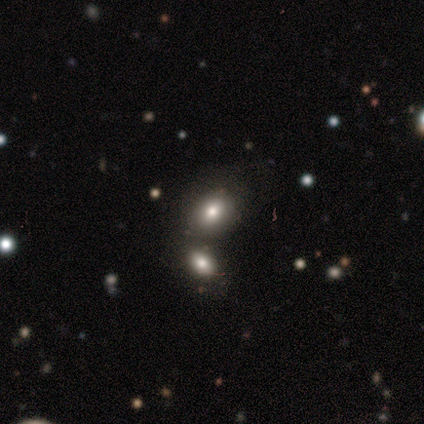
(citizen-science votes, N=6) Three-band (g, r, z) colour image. It shows a smooth galaxy with no disk features (67%) that is in between round and cigar-shaped (100%). Merging: none (60%).